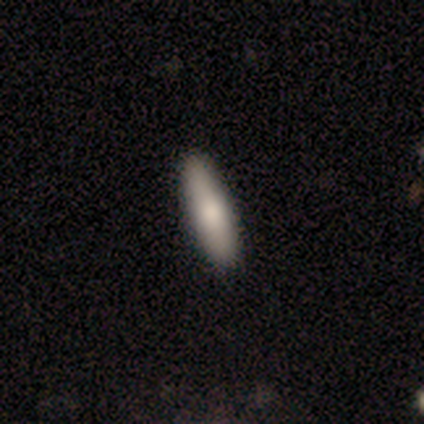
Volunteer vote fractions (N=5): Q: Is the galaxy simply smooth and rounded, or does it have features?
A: smooth — 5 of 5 (100%).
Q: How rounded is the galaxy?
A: cigar-shaped — 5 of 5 (100%).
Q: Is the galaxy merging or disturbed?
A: none — 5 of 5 (100%).